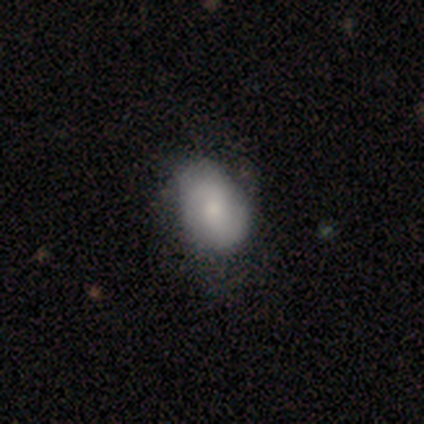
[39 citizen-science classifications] Smooth or featured? 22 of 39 (56%) said smooth. How rounded? 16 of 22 (73%) said in between. Merging? 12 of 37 (32%) said none.